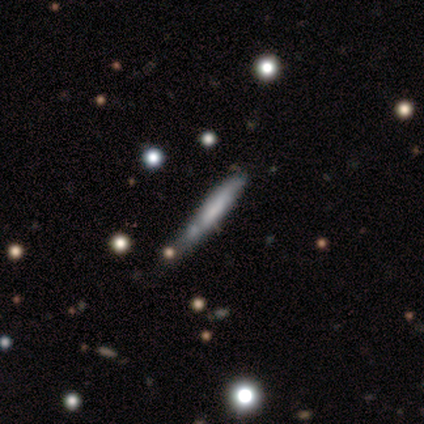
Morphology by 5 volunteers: Smooth or featured?
  - smooth: 40% * (tied)
  - featured or disk: 40% * (tied)
  - star or artifact: 20%
How rounded?
  - cigar-shaped: 100% *
  - round: 0%
  - in between: 0%
Merging?
  - none: 50% *
  - minor disturbance: 25%
  - major disturbance: 25%
  - merger: 0%